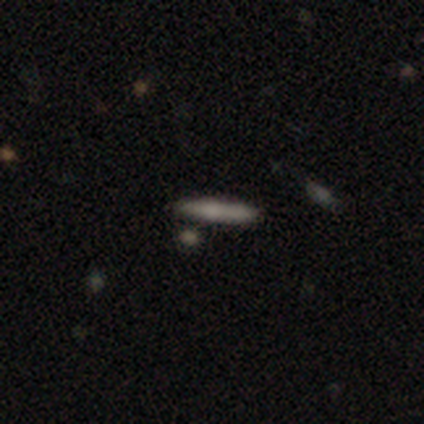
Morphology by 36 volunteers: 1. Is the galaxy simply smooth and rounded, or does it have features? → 56% smooth, 39% featured or disk, 6% star or artifact.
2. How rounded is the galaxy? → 100% cigar-shaped, 0% round, 0% in between.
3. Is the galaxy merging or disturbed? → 65% none, 24% minor disturbance, 9% merger, 3% major disturbance.